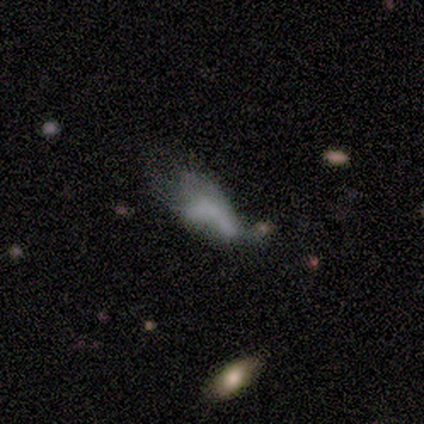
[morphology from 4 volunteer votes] smooth 50% (tied), featured or disk 50% (tied), star or artifact 0%. Down the decision tree: how rounded — in between (50%, tied with cigar-shaped); merging — none (50%).